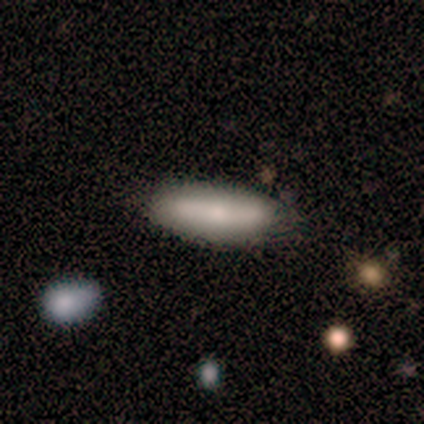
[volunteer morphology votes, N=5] Q: Smooth or featured?
A: smooth (80%); runner-up: star or artifact (20%)
Q: How rounded?
A: in between (50%); tied with: cigar-shaped (50%)
Q: Merging?
A: none (100%)